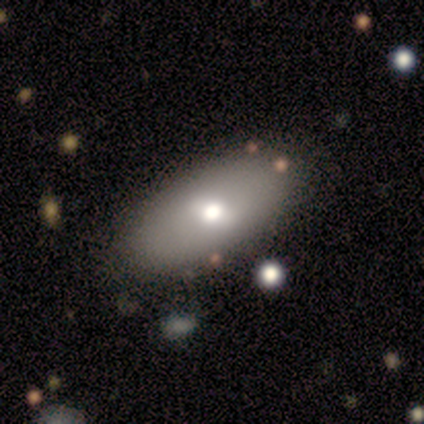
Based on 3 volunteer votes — Q: Smooth or featured?
A: featured or disk (67%); runner-up: smooth (33%)
Q: Edge-on disk?
A: no (100%)
Q: Bar?
A: weak (100%)
Q: Spiral arms?
A: no (100%)
Q: Bulge size?
A: large (50%); tied with: moderate (50%)
Q: Merging?
A: none (67%); runner-up: merger (33%)